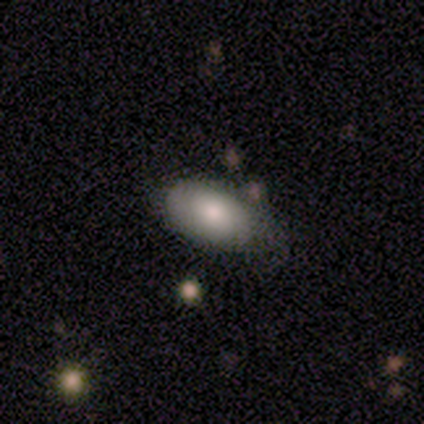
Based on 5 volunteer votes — smooth_or_featured: smooth (p=1.00)
how_rounded: in between (p=1.00)
merging: none (p=0.60) [alt: minor disturbance p=0.20]